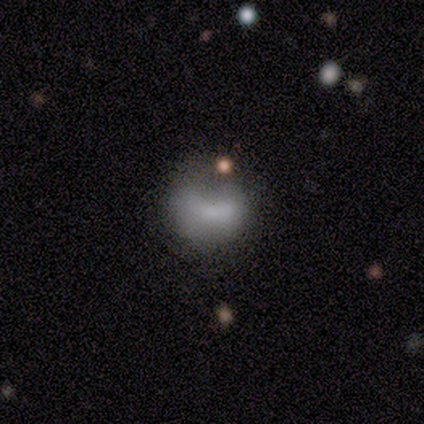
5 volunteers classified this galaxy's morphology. Smooth or featured? smooth (60%)
How rounded? round (67%)
Merging? none (50%)